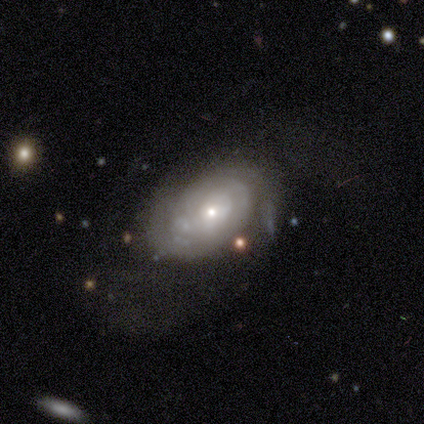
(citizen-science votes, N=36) featured or disk 61%, smooth 39%, star or artifact 0%. Down the decision tree: edge-on disk — no (91%); bar — no (80%); spiral arms — yes (65%); spiral arm count — 2 (62%); spiral winding — tight (77%); bulge size — small (75%); merging — none (50%).